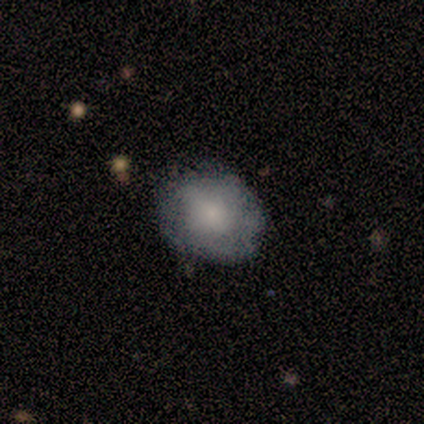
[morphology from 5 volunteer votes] smooth_or_featured: smooth (p=0.60) [alt: featured or disk p=0.40]
how_rounded: in between (p=0.67) [alt: round p=0.33]
merging: none (p=0.60) [alt: minor disturbance p=0.20]